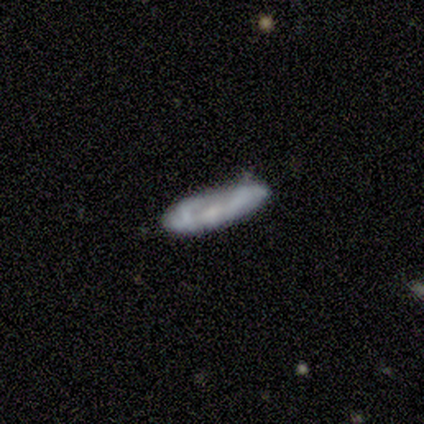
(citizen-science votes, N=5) Smooth or featured: featured or disk — 60% (smooth — 40%)
Edge-on disk: no — 100%
Bar: no — 100%
Spiral arms: no — 67% (yes — 33%)
Bulge size: small — 100%
Merging: none — 80% (minor disturbance — 20%)